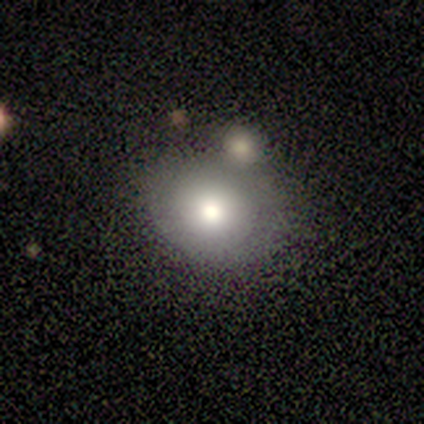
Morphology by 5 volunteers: Q: Smooth or featured?
A: smooth (40%); tied with: featured or disk (40%)
Q: How rounded?
A: round (50%); tied with: in between (50%)
Q: Merging?
A: none (50%); tied with: merger (50%)